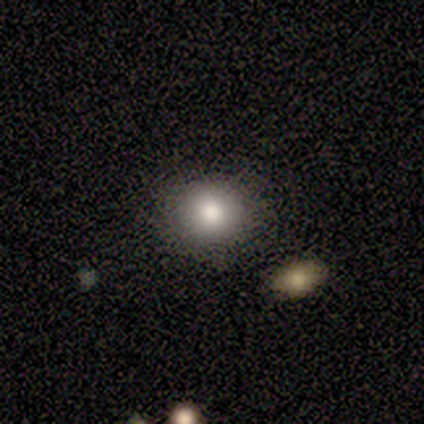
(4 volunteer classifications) This appears to be a smooth galaxy with no disk features (75%) that is in between round and cigar-shaped (67%). Merging: none (75%).